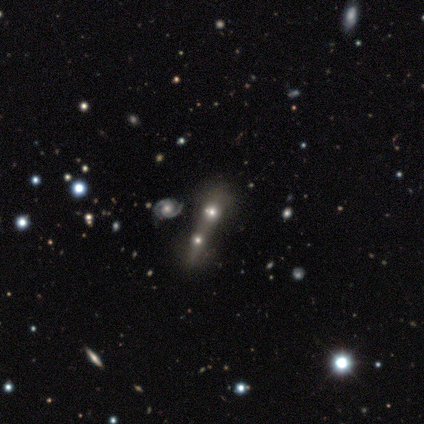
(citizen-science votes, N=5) smooth_or_featured: smooth (p=0.80) [alt: star or artifact p=0.20]
how_rounded: round (p=0.50) [alt: in between p=0.25]
merging: merger (p=1.00)